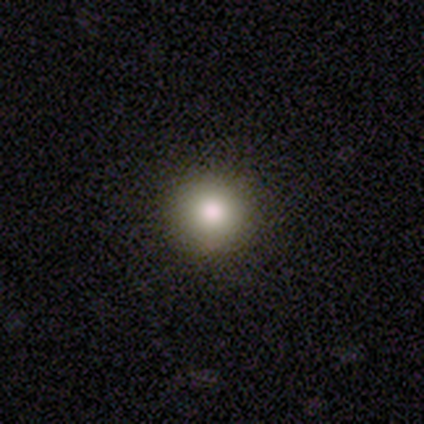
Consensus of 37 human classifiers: This is likely a smooth galaxy (76%). How rounded: clearly round (100%). Merging: clearly none (93%).